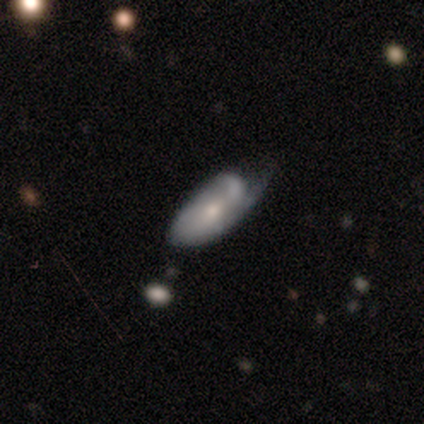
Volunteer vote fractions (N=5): Smooth or featured? featured or disk (80%)
Edge-on disk? no (100%)
Bar? no (75%)
Spiral arms? yes (75%)
Spiral winding? tight (100%)
Spiral arm count? 1 (67%)
Bulge size? moderate (75%)
Merging? minor disturbance (60%)